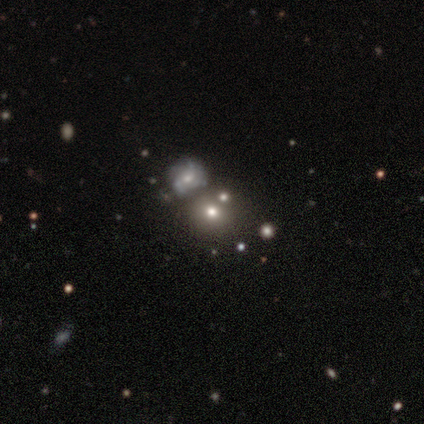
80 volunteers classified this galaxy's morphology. This is possibly a smooth galaxy (55%). How rounded: clearly round (82%). Merging: possibly merger (51%).